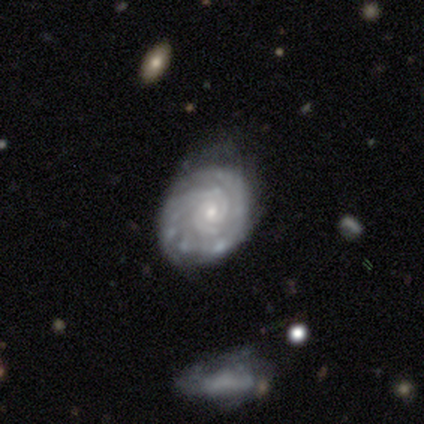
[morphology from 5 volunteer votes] Smooth or featured?
  - featured or disk: 100% *
  - smooth: 0%
  - star or artifact: 0%
Edge-on disk?
  - no: 100% *
  - yes: 0%
Bar?
  - no: 100% *
  - strong: 0%
  - weak: 0%
Spiral arms?
  - yes: 100% *
  - no: 0%
Spiral winding?
  - tight: 100% *
  - medium: 0%
  - loose: 0%
Spiral arm count?
  - 2: 80% *
  - can't tell: 20%
  - 1: 0%
  - 3: 0%
  - 4: 0%
  - more than 4: 0%
Bulge size?
  - small: 80% *
  - moderate: 20%
  - dominant: 0%
  - large: 0%
  - none: 0%
Merging?
  - none: 40% * (tied)
  - minor disturbance: 40% * (tied)
  - major disturbance: 20%
  - merger: 0%